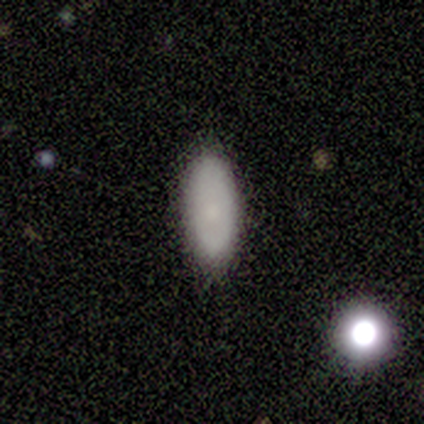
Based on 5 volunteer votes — smooth_or_featured: smooth (p=0.80) [alt: star or artifact p=0.20]
how_rounded: in between (p=0.75) [alt: cigar-shaped p=0.25]
merging: none (p=1.00)